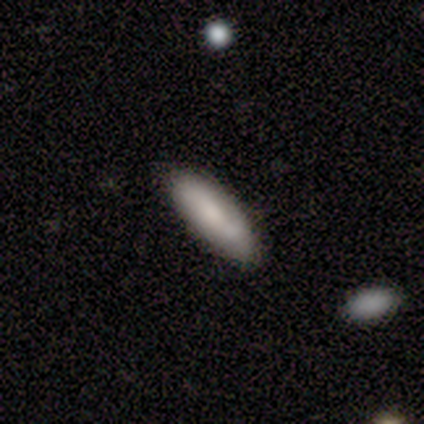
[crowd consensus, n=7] Smooth or featured? 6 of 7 (86%) said smooth. How rounded? 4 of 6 (67%) said in between. Merging? 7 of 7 (100%) said none.